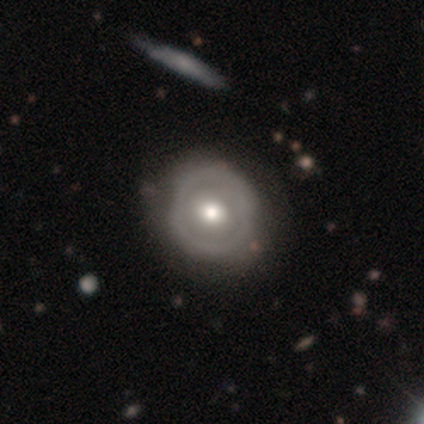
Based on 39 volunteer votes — This is possibly a smooth galaxy (49%, tied with featured or disk). How rounded: clearly round (84%). Merging: possibly none (47%).